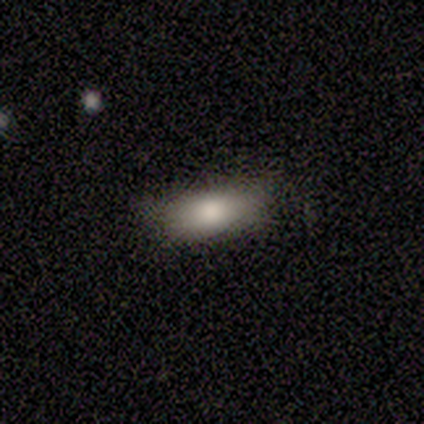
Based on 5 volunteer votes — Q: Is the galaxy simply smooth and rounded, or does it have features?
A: smooth — 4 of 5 (80%).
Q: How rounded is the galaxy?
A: in between — 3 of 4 (75%).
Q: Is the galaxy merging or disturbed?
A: none — 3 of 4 (75%).